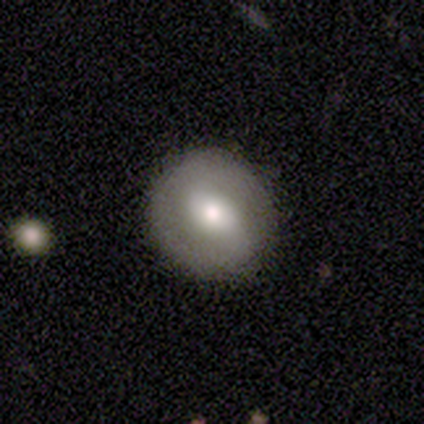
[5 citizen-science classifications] featured or disk 80%, smooth 20%, star or artifact 0%. Down the decision tree: edge-on disk — no (100%); bar — weak (50%); spiral arms — yes (50%, tied with no); spiral arm count — 2 (100%); spiral winding — tight (50%, tied with medium); bulge size — moderate (75%); merging — none (100%).